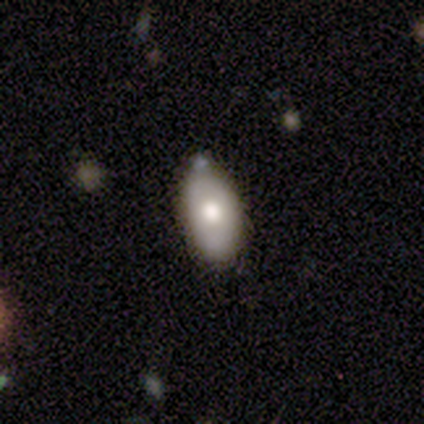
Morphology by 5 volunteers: Smooth or featured? smooth (40%, tied with featured or disk)
How rounded? in between (100%)
Merging? none (75%)